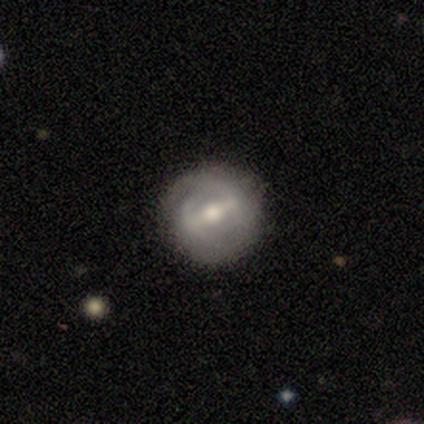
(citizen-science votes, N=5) Volunteers were most divided on "spiral winding" (2-way tie): tight: 50%, medium: 50%, loose: 0%; "spiral arm count" (2-way tie): 2: 50%, can't tell: 50%, 1: 0%, 3: 0%, 4: 0%, more than 4: 0%; "bulge size" (2-way tie): dominant: 50%, moderate: 50%, large: 0%, small: 0%, none: 0%. More confident: bar — strong (100%); spiral arms — yes (100%); edge-on disk — no (67%); smooth or featured — featured or disk (60%); merging — none (60%).